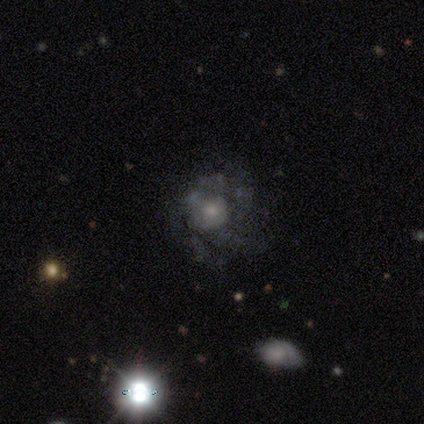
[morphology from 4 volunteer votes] Smooth or featured: smooth — 50% (tied with featured or disk — 50%)
How rounded: round — 100%
Merging: none — 75% (minor disturbance — 25%)